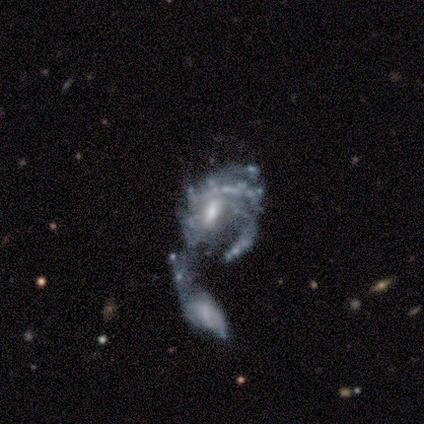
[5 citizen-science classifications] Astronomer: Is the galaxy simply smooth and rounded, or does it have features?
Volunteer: featured or disk — 100%.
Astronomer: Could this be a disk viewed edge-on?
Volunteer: no — 100%.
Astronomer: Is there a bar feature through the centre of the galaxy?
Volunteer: no — 60% (runner-up: weak, 40%).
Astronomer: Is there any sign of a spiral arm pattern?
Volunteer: yes — 100%.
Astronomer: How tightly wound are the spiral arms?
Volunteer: medium — 60% (runner-up: tight, 40%).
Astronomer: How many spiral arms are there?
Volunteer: can't tell — 60%.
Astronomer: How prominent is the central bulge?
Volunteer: moderate — 60%.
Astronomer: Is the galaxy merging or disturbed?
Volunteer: merger — 100%.